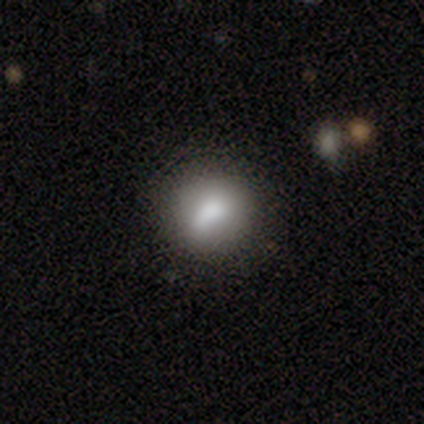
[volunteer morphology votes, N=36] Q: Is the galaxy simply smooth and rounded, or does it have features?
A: smooth — 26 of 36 (72%).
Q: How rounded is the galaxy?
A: round — 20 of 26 (77%).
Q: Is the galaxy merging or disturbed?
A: none — 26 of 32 (81%).